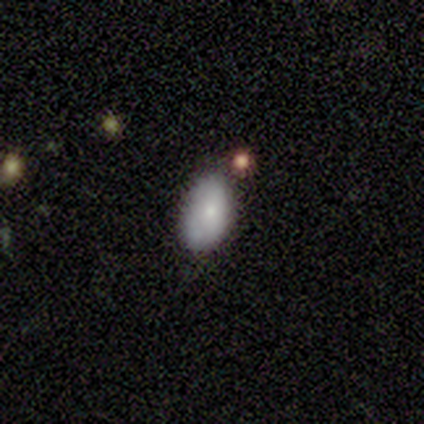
Q: Smooth or featured?
A: smooth (100%)
Q: How rounded?
A: in between (100%)
Q: Merging?
A: minor disturbance (100%)